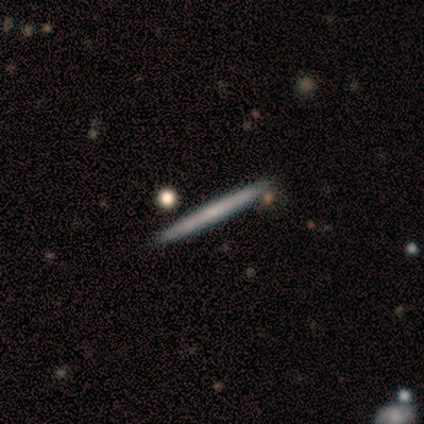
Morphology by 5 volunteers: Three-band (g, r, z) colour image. It shows a smooth galaxy with no disk features (80%) that is cigar-shaped (100%). Merging: none (100%).